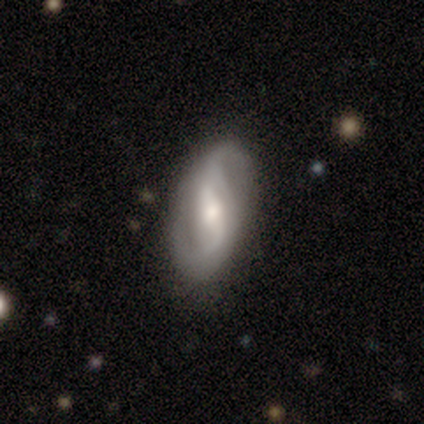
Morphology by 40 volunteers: Overall: featured or disk (85%). Edge-on disk: no (97%). Bar: strong (42%; weak 39%). Spiral arms: yes (91%). Spiral arm count: 2 (100%). Spiral winding: loose (47%; medium 43%). Bulge size: moderate (52%; large 24%). Merging: none (79%).